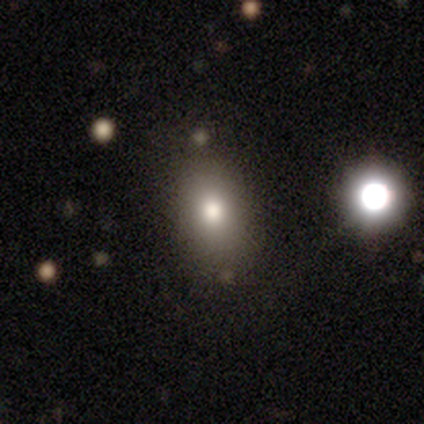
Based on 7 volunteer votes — Smooth or featured? 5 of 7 (71%) said smooth. How rounded? 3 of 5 (60%) said in between. Merging? 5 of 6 (83%) said none.